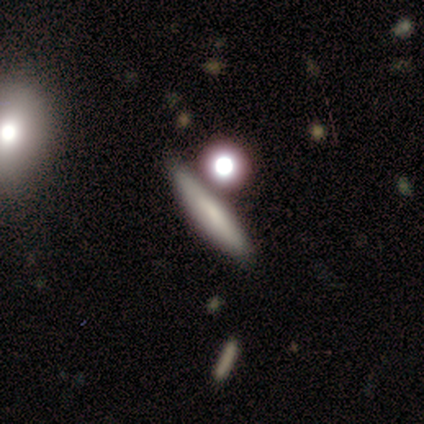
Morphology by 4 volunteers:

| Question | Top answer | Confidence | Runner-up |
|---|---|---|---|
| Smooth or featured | smooth | 75% | star or artifact (25%) |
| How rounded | cigar-shaped | 100% | — |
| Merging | merger | 67% | minor disturbance (33%) |